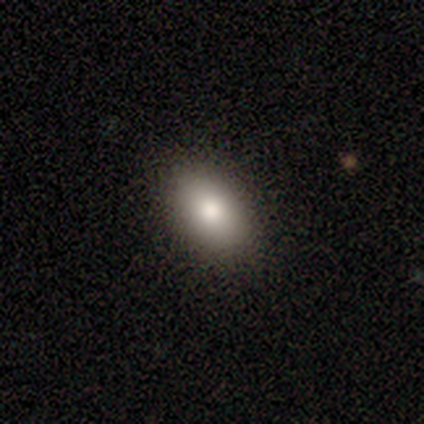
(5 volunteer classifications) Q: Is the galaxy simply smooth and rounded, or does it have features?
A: smooth — 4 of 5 (80%).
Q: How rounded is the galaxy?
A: in between — 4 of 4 (100%).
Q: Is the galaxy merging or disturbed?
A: none — 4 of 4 (100%).